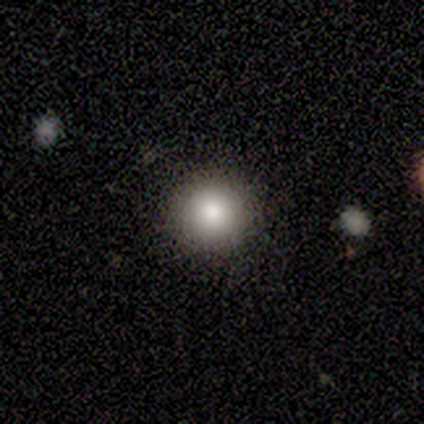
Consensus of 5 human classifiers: Smooth or featured? smooth (100%)
How rounded? round (80%)
Merging? minor disturbance (60%)